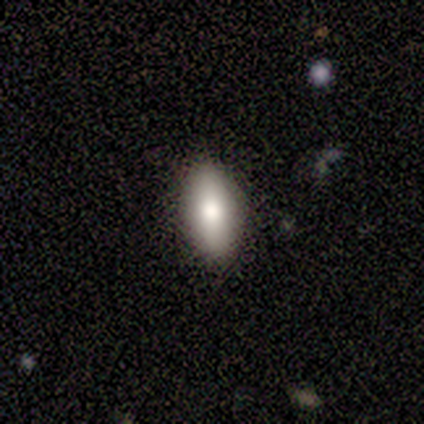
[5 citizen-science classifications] This appears to be a smooth galaxy with no disk features (100%) that is in between round and cigar-shaped (100%). Merging: none (80%).